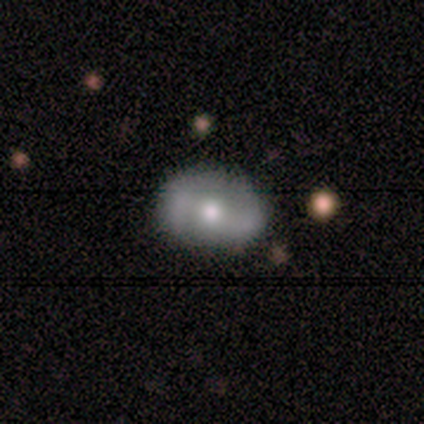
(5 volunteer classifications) Smooth or featured? 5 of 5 (100%) said featured or disk. Edge-on disk? 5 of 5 (100%) said no. Bar? 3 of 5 (60%) said weak. Spiral arms? 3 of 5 (60%) said yes. Spiral winding? 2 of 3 (67%) said loose. Spiral arm count? 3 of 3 (100%) said 2. Bulge size? 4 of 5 (80%) said moderate. Merging? 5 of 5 (100%) said none.